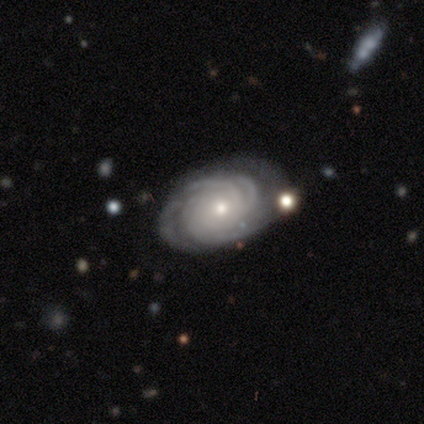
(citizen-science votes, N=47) smooth-or-featured: featured or disk: 94% | smooth: 4% | star or artifact: 2%
  disk-edge-on: no: 100% | yes: 0%
    bar: no: 86% | strong: 9% | weak: 5%
    has-spiral-arms: yes: 98% | no: 2%
      spiral-winding: tight: 77% | medium: 23% | loose: 0%
      spiral-arm-count: 4: 42% | can't tell: 26% | 3: 16% | 2: 7% | more than 4: 7% | 1: 2%
    bulge-size: moderate: 64% | small: 36% | dominant: 0% | large: 0% | none: 0%
  merging: none: 57% | minor disturbance: 28% | major disturbance: 11% | merger: 4%